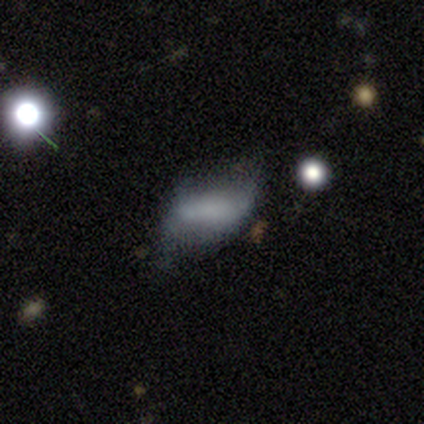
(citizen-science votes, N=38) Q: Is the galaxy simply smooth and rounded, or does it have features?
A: featured or disk — 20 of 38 (53%).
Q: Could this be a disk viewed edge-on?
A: no — 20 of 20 (100%).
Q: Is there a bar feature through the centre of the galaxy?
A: no — 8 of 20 (40%).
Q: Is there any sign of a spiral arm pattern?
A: yes — 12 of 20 (60%).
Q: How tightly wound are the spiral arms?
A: loose — 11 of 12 (92%).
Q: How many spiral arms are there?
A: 2 — 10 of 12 (83%).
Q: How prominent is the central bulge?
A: none — 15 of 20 (75%).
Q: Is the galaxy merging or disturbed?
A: minor disturbance — 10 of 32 (31%, tied with major disturbance).